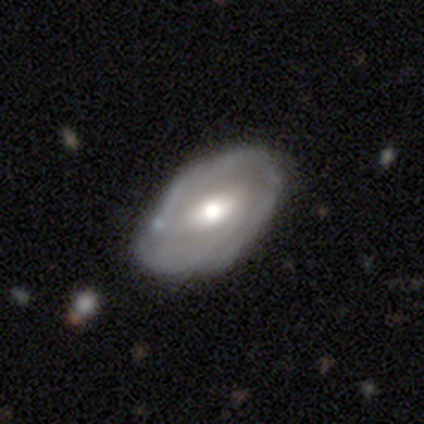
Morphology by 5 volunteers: Smooth or featured?
  - featured or disk: 60% *
  - smooth: 20%
  - star or artifact: 20%
Edge-on disk?
  - no: 100% *
  - yes: 0%
Bar?
  - weak: 67% *
  - no: 33%
  - strong: 0%
Spiral arms?
  - yes: 67% *
  - no: 33%
Spiral winding?
  - tight: 50% * (tied)
  - medium: 50% * (tied)
  - loose: 0%
Spiral arm count?
  - 2: 50% * (tied)
  - 4: 50% * (tied)
  - 1: 0%
  - 3: 0%
  - more than 4: 0%
  - can't tell: 0%
Bulge size?
  - moderate: 100% *
  - dominant: 0%
  - large: 0%
  - small: 0%
  - none: 0%
Merging?
  - none: 100% *
  - minor disturbance: 0%
  - major disturbance: 0%
  - merger: 0%